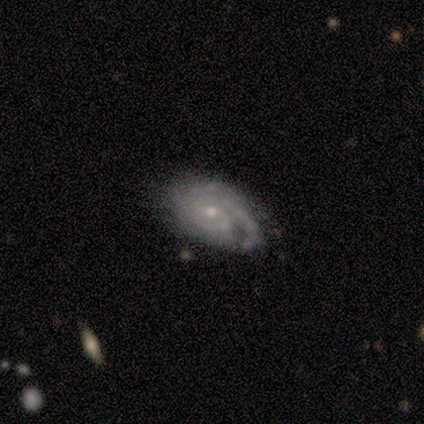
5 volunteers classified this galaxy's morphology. Volunteers were most divided on "spiral winding" (2-way tie): tight: 40%, medium: 40%, loose: 20%; "merging" (2-way tie): none: 40%, minor disturbance: 40%, major disturbance: 20%, merger: 0%. More confident: smooth or featured — featured or disk (100%); edge-on disk — no (100%); spiral arms — yes (100%); bulge size — small (100%); bar — no (80%); spiral arm count — 2 (60%).